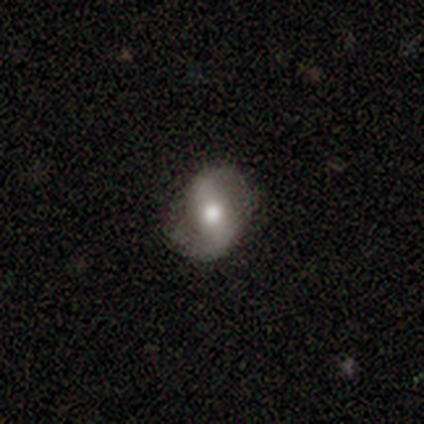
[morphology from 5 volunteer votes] smooth_or_featured: featured or disk (p=1.00)
disk_edge_on: no (p=1.00)
bar: weak (p=0.80) [alt: strong p=0.20]
has_spiral_arms: yes (p=0.80) [alt: no p=0.20]
spiral_winding: loose (p=0.50) [alt: tight p=0.25]
spiral_arm_count: 2 (p=1.00)
bulge_size: moderate (p=0.60) [alt: large p=0.20]
merging: none (p=0.80) [alt: minor disturbance p=0.20]